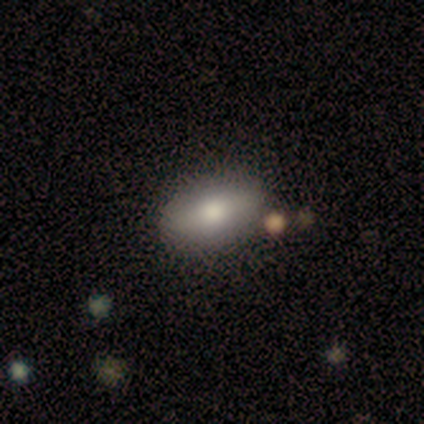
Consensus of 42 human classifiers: A smooth galaxy with no disk features (64%) that is in between round and cigar-shaped (93%).

Vote fractions:
- Smooth or featured? smooth: 64% / featured or disk: 26% / star or artifact: 10%
- How rounded? in between: 93% / cigar-shaped: 7% / round: 0%
- Merging? none: 84% / minor disturbance: 8% / major disturbance: 5% / merger: 3%